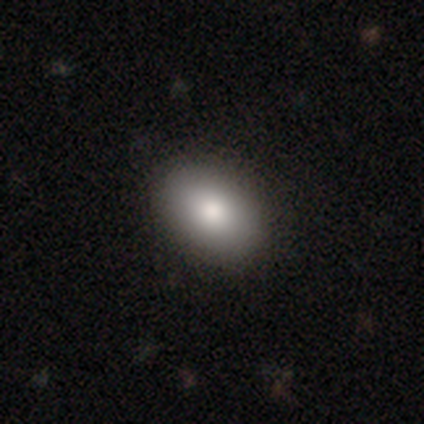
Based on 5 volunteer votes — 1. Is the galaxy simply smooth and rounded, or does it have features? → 100% smooth, 0% featured or disk, 0% star or artifact.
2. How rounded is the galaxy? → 100% in between, 0% round, 0% cigar-shaped.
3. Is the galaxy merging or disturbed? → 100% none, 0% minor disturbance, 0% major disturbance, 0% merger.